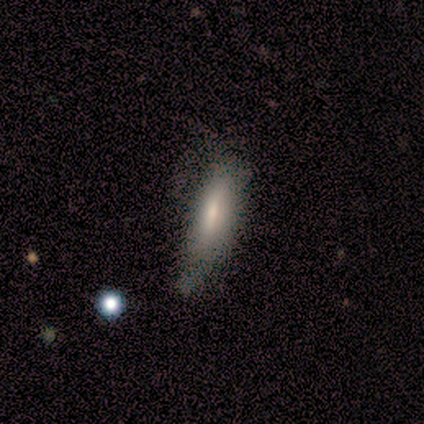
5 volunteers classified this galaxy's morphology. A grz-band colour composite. It shows a smooth galaxy with no disk features (80%) that is in between round and cigar-shaped (50%, tied with cigar-shaped). Merging: none (60%).